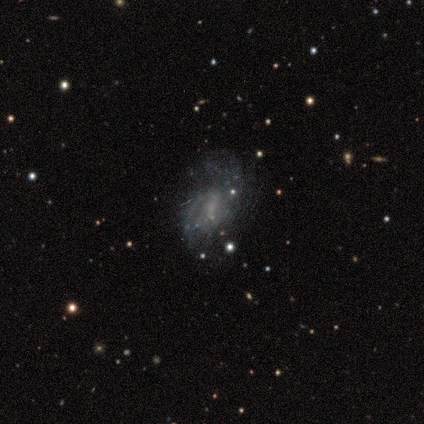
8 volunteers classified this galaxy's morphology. Volunteers were most divided on "merging" (2-way tie): none: 43%, major disturbance: 43%, minor disturbance: 14%, merger: 0%. More confident: edge-on disk — no (100%); bar — no (80%); spiral winding — medium (67%); spiral arm count — can't tell (67%); smooth or featured — featured or disk (62%); spiral arms — yes (60%); bulge size — none (60%).